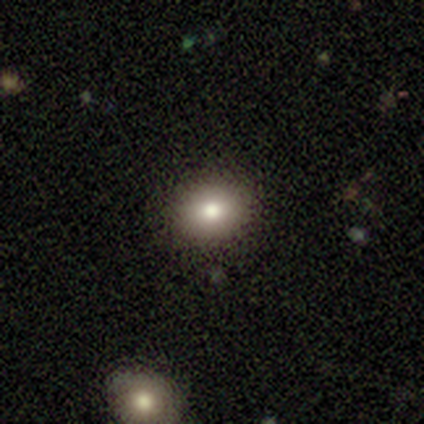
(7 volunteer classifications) This appears to be a smooth galaxy with no disk features (86%) that is in between round and cigar-shaped (67%). Merging: none (100%).